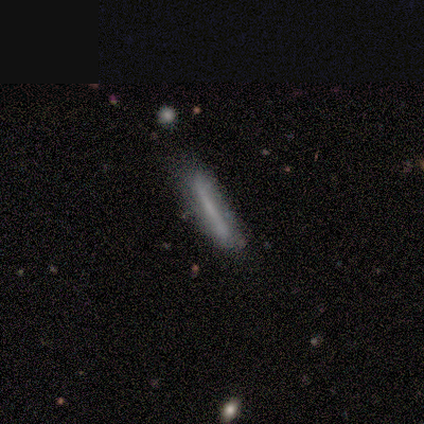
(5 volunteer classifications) Smooth or featured? smooth (60%)
How rounded? cigar-shaped (100%)
Merging? none (40%, tied with minor disturbance)